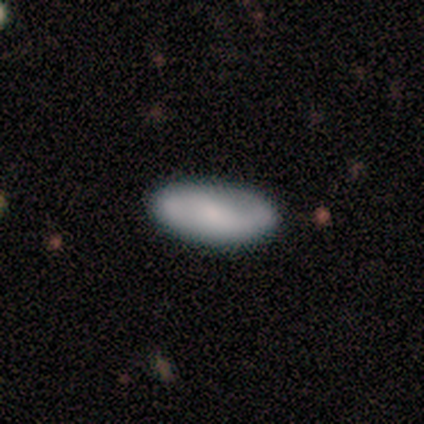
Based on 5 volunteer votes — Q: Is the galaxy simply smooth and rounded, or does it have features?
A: smooth — 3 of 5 (60%).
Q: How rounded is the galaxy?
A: in between — 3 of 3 (100%).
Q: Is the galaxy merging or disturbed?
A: minor disturbance — 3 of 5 (60%).